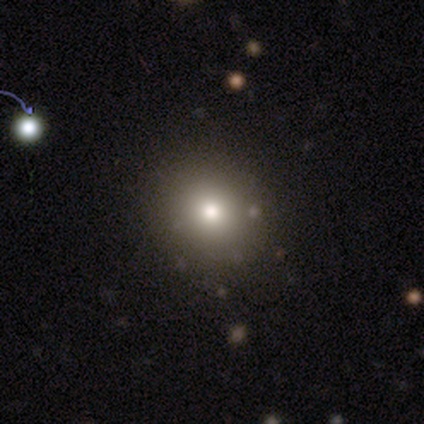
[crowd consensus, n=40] smooth 88%, featured or disk 8%, star or artifact 5%. Down the decision tree: how rounded — round (91%); merging — none (58%).